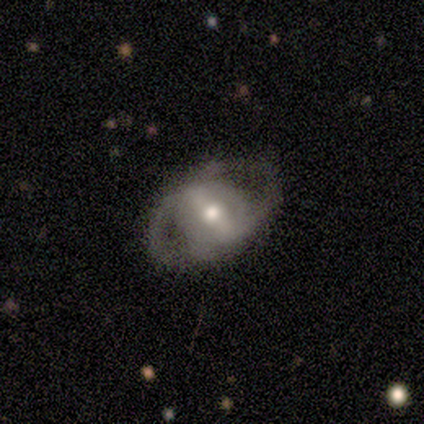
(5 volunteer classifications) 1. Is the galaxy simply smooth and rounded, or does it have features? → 100% featured or disk, 0% smooth, 0% star or artifact.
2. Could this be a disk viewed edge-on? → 100% no, 0% yes.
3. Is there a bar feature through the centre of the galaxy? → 60% no, 20% strong, 20% weak.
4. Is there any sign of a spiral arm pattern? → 60% no, 40% yes.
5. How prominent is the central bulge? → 60% moderate, 40% small, 0% dominant, 0% large, 0% none.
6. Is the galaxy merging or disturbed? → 80% none, 20% minor disturbance, 0% major disturbance, 0% merger.